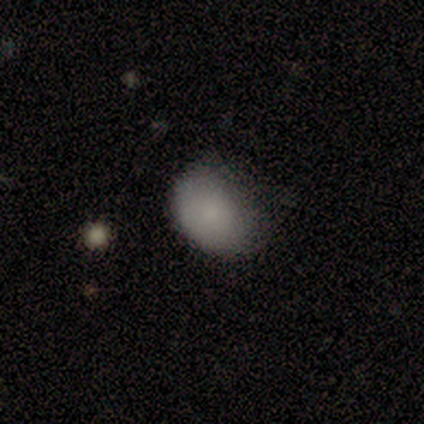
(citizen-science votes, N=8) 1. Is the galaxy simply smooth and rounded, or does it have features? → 100% smooth, 0% featured or disk, 0% star or artifact.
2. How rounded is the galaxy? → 88% in between, 12% round, 0% cigar-shaped.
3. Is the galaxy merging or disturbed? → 75% none, 25% minor disturbance, 0% major disturbance, 0% merger.